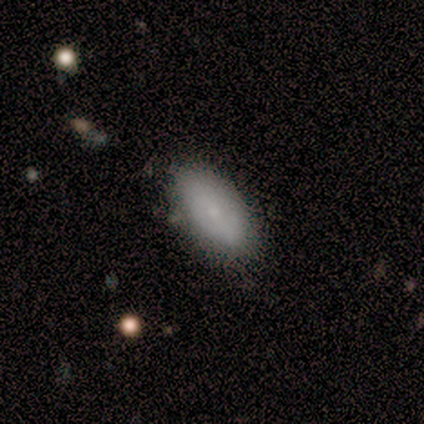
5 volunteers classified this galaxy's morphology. Smooth or featured? smooth (60%)
How rounded? in between (100%)
Merging? none (67%)